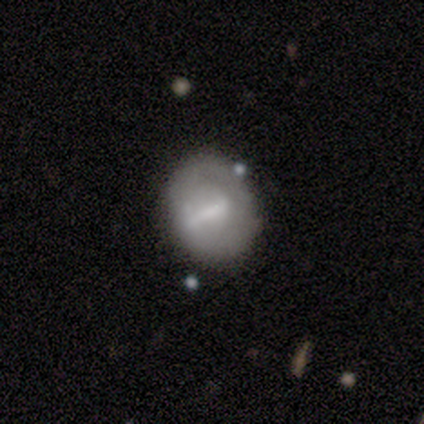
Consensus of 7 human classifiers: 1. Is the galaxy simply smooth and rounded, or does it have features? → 43% featured or disk, 29% smooth, 29% star or artifact.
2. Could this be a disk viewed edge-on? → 100% no, 0% yes.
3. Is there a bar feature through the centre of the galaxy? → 100% weak, 0% strong, 0% no.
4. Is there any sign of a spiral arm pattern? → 100% no, 0% yes.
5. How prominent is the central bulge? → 100% small, 0% dominant, 0% large, 0% moderate, 0% none.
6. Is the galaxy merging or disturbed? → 60% none, 40% minor disturbance, 0% major disturbance, 0% merger.